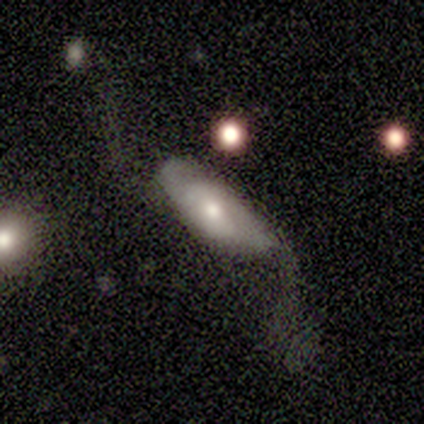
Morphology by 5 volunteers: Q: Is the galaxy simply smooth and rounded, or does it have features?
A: featured or disk — 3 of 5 (60%).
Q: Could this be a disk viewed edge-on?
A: no — 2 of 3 (67%).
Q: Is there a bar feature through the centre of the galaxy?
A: no — 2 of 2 (100%).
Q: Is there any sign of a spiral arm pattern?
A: yes — 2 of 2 (100%).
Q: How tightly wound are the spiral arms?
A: loose — 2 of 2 (100%).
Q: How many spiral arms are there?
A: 2 — 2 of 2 (100%).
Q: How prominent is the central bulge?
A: small — 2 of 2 (100%).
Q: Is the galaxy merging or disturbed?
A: minor disturbance — 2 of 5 (40%, tied with major disturbance).